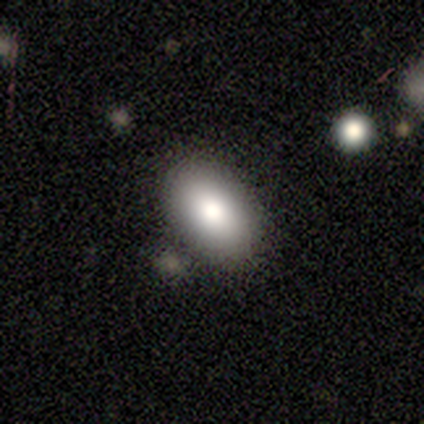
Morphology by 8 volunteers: Smooth or featured: smooth — 88% (featured or disk — 12%)
How rounded: in between — 100%
Merging: none — 75% (minor disturbance — 12%)